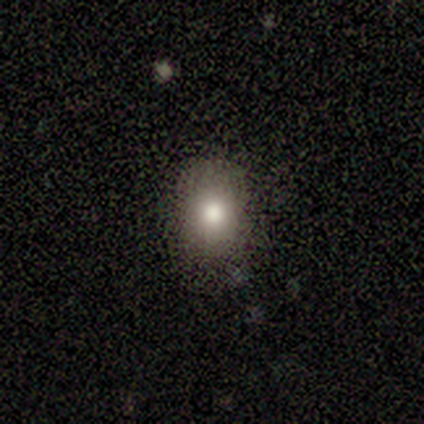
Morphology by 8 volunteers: This is likely a smooth galaxy (62%). How rounded: clearly in between (80%). Merging: clearly none (100%).